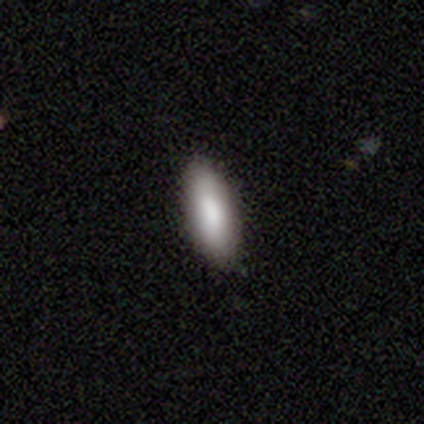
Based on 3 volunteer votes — Smooth or featured?
  - smooth: 100% *
  - featured or disk: 0%
  - star or artifact: 0%
How rounded?
  - in between: 100% *
  - round: 0%
  - cigar-shaped: 0%
Merging?
  - none: 100% *
  - minor disturbance: 0%
  - major disturbance: 0%
  - merger: 0%